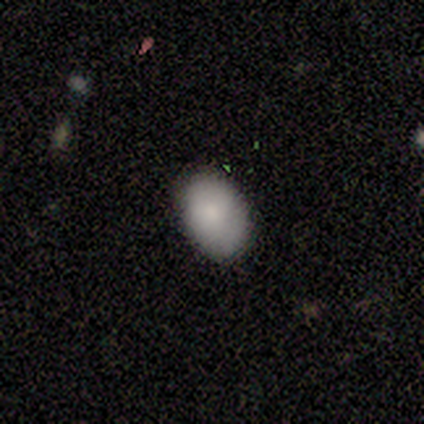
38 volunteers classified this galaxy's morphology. Smooth or featured? 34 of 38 (89%) said smooth. How rounded? 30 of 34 (88%) said in between. Merging? 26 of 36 (72%) said none.